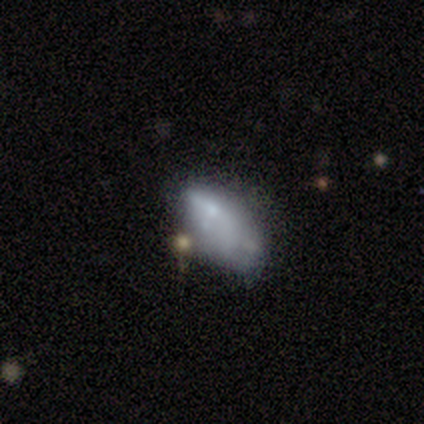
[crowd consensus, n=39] Q: Smooth or featured?
A: smooth (54%); runner-up: featured or disk (38%)
Q: How rounded?
A: in between (100%)
Q: Merging?
A: none (44%); runner-up: minor disturbance (31%)